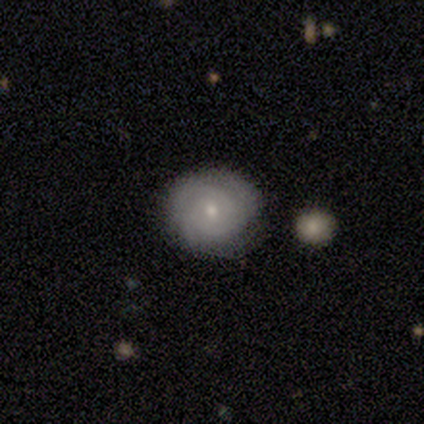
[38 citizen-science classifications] smooth_or_featured: featured or disk (p=0.61) [alt: smooth p=0.34]
disk_edge_on: no (p=1.00)
bar: no (p=0.74) [alt: weak p=0.26]
has_spiral_arms: yes (p=0.87) [alt: no p=0.13]
spiral_winding: tight (p=0.90) [alt: medium p=0.10]
spiral_arm_count: can't tell (p=0.40) [alt: 2 p=0.25]
bulge_size: small (p=0.70) [alt: moderate p=0.22]
merging: none (p=0.89) [alt: minor disturbance p=0.11]